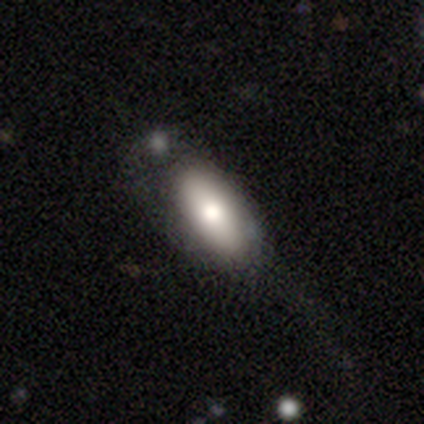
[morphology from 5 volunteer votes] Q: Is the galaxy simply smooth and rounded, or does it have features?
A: smooth — 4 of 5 (80%).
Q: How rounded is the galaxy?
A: in between — 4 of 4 (100%).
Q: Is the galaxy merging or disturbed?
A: none — 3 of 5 (60%).